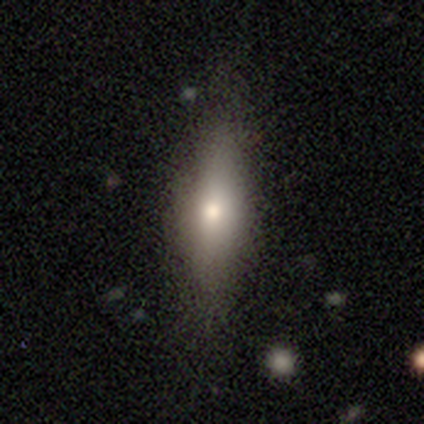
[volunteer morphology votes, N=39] A smooth galaxy with no disk features (67%) that is cigar-shaped (58%). Merging: none (86%).